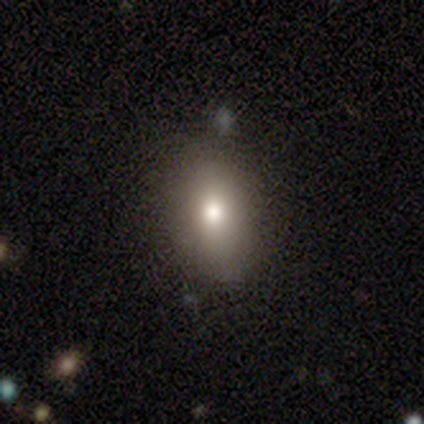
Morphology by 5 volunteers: Q: Smooth or featured?
A: smooth (80%); runner-up: star or artifact (20%)
Q: How rounded?
A: in between (100%)
Q: Merging?
A: none (100%)